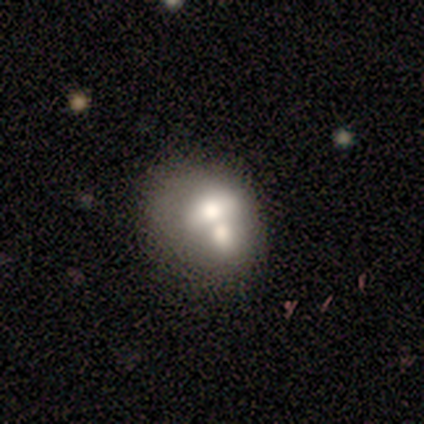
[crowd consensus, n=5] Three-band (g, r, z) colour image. It shows a featured or disk galaxy (80%) with no bar (100%), no spiral arms (100%) and a moderate central bulge (75%). Merging: merger (80%).